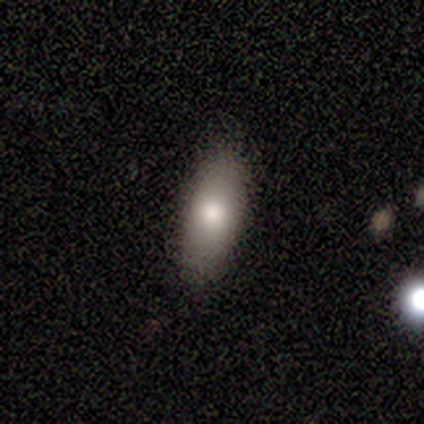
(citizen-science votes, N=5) This is clearly a smooth galaxy (80%). How rounded: likely in between (75%). Merging: clearly none (100%).